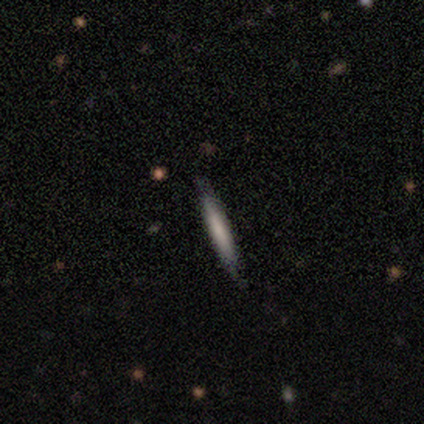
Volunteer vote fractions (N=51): smooth_or_featured: smooth (p=0.63) [alt: featured or disk p=0.35]
how_rounded: cigar-shaped (p=0.97) [alt: in between p=0.03]
merging: none (p=0.96) [alt: minor disturbance p=0.04]